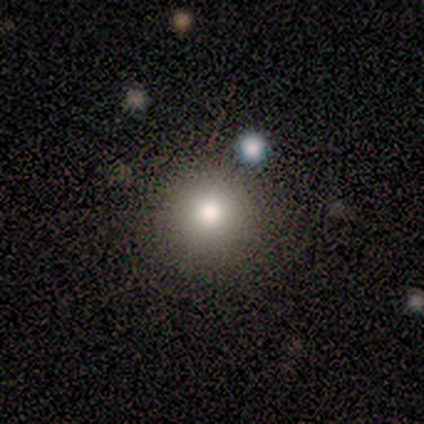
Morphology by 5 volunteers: smooth 60%, featured or disk 40%, star or artifact 0%. Down the decision tree: how rounded — round (100%); merging — none (60%).